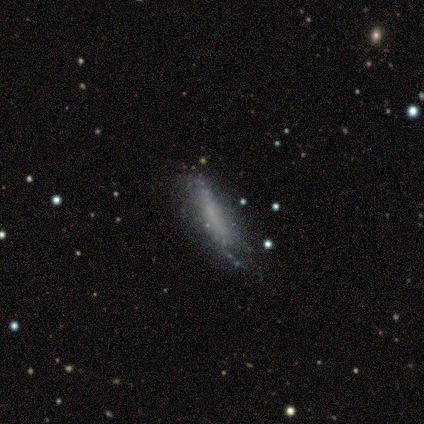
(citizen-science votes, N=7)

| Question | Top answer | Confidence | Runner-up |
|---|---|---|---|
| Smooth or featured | smooth | 57% | featured or disk (43%) |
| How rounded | in between | 50% | tied: cigar-shaped (50%) |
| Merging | none | 43% | tied: minor disturbance (43%) |